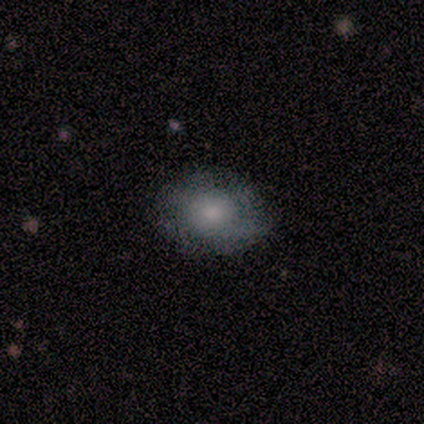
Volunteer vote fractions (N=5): Smooth or featured?
  - smooth: 100% *
  - featured or disk: 0%
  - star or artifact: 0%
How rounded?
  - in between: 80% *
  - round: 20%
  - cigar-shaped: 0%
Merging?
  - none: 60% *
  - major disturbance: 40%
  - minor disturbance: 0%
  - merger: 0%